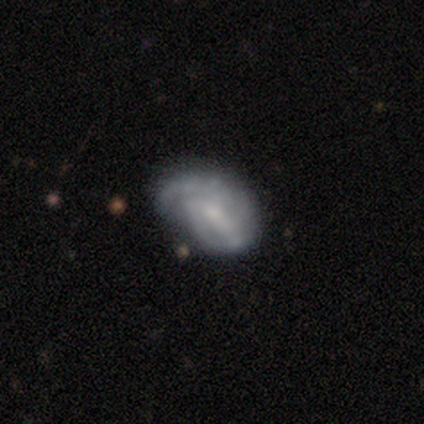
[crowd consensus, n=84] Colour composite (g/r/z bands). It shows a featured or disk galaxy (74%) with no bar (51%), 2 (36%) tight (51%) spiral arms (90%) and a small central bulge (49%). Merging: none (46%).